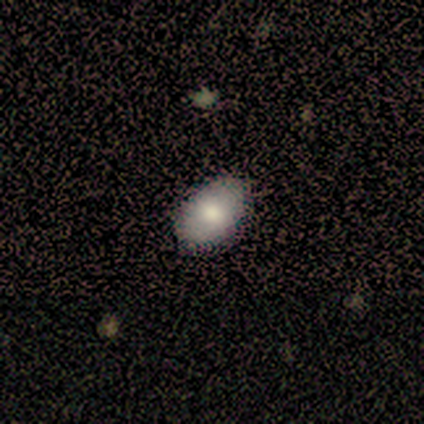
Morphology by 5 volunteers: Volunteers were most divided on "smooth or featured": smooth: 80%, star or artifact: 20%, featured or disk: 0%. More confident: how rounded — in between (100%); merging — none (100%).